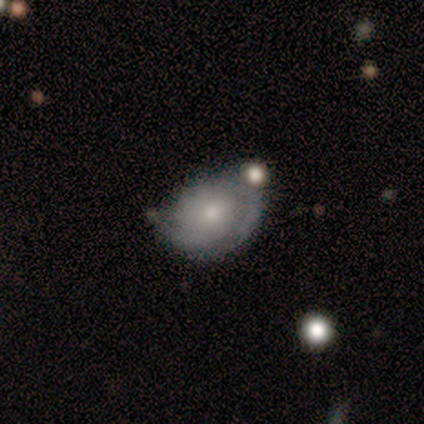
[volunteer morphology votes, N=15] smooth_or_featured: featured or disk (p=0.60) [alt: smooth p=0.33]
disk_edge_on: no (p=1.00)
bar: no (p=0.89) [alt: weak p=0.11]
has_spiral_arms: yes (p=0.67) [alt: no p=0.33]
spiral_winding: medium (p=0.67) [alt: loose p=0.33]
spiral_arm_count: 2 (p=0.50) [alt: can't tell p=0.33]
bulge_size: small (p=0.67) [alt: moderate p=0.33]
merging: none (p=0.64) [alt: minor disturbance p=0.21]